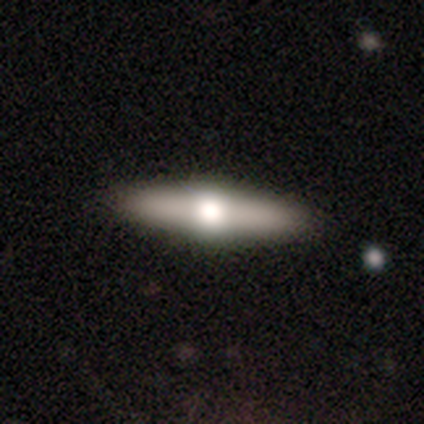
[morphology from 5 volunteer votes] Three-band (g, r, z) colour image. It shows a featured or disk galaxy (60%) viewed edge-on (100%) with a rounded central bulge (100%). Merging: none (60%).